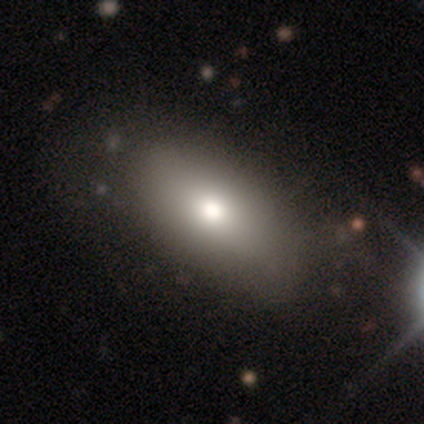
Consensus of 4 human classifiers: This is clearly a smooth galaxy (100%). How rounded: clearly in between (100%). Merging: clearly none (100%).